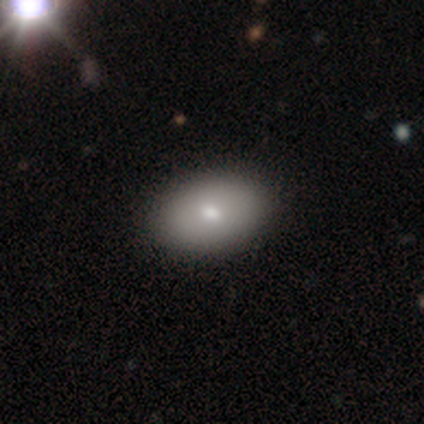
Smooth or featured? smooth (87%)
How rounded? in between (94%)
Merging? none (68%)